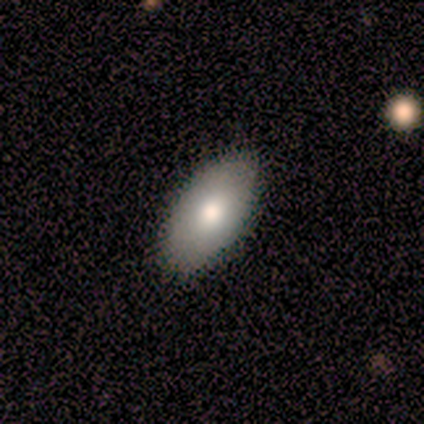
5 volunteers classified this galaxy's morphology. Smooth or featured?
  - smooth: 100% *
  - featured or disk: 0%
  - star or artifact: 0%
How rounded?
  - in between: 100% *
  - round: 0%
  - cigar-shaped: 0%
Merging?
  - none: 100% *
  - minor disturbance: 0%
  - major disturbance: 0%
  - merger: 0%